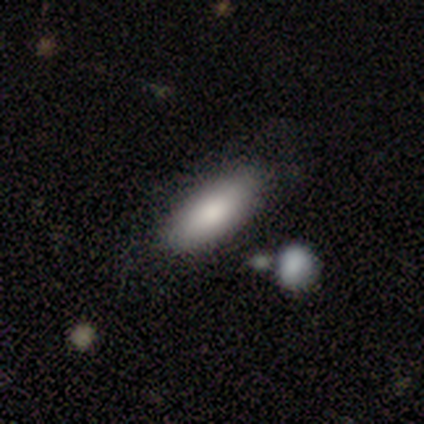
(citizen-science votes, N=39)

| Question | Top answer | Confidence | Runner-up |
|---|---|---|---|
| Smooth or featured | smooth | 87% | featured or disk (13%) |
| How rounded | in between | 94% | cigar-shaped (6%) |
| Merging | none | 64% | merger (5%) |